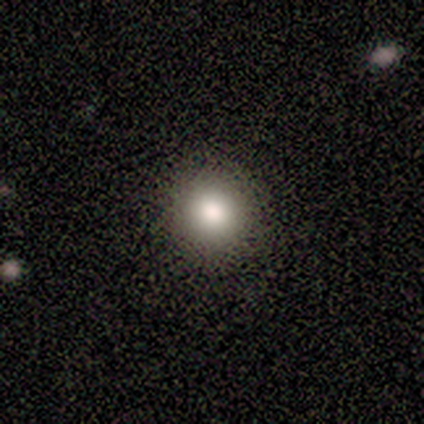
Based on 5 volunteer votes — Smooth or featured: smooth — 100%
How rounded: round — 80% (in between — 20%)
Merging: none — 100%